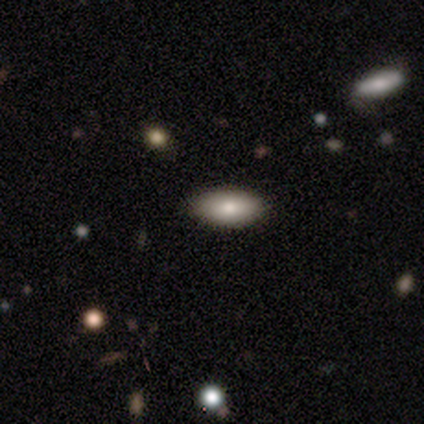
Smooth or featured? 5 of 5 (100%) said smooth. How rounded? 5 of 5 (100%) said in between. Merging? 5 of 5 (100%) said none.